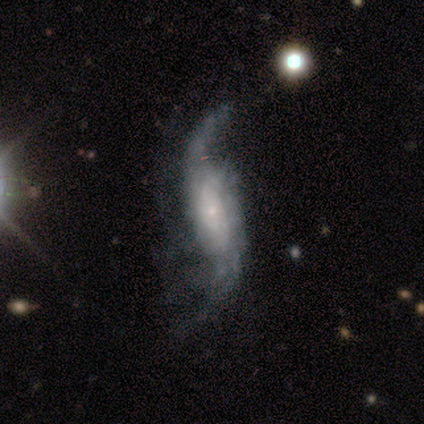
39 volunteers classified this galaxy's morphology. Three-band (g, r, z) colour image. It shows a featured or disk galaxy (97%) with no bar (64%), 2 (86%) loose (91%) spiral arms (97%) and a small central bulge (58%). Merging: none (38%).